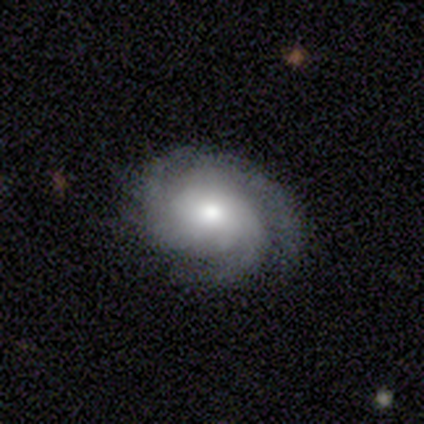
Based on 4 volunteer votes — smooth_or_featured: featured or disk (p=0.75) [alt: star or artifact p=0.25]
disk_edge_on: no (p=1.00)
bar: no (p=1.00)
has_spiral_arms: yes (p=0.67) [alt: no p=0.33]
spiral_winding: tight (p=1.00)
spiral_arm_count: 3 (p=1.00)
bulge_size: large (p=0.67) [alt: moderate p=0.33]
merging: none (p=1.00)